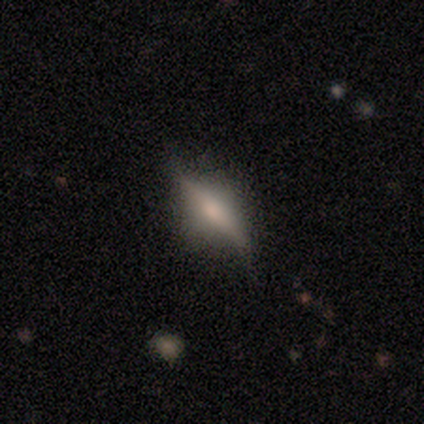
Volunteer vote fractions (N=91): smooth_or_featured: featured or disk (p=0.63) [alt: smooth p=0.25]
disk_edge_on: yes (p=0.79) [alt: no p=0.21]
edge_on_bulge: rounded (p=0.82) [alt: none p=0.11]
merging: none (p=0.70) [alt: minor disturbance p=0.26]